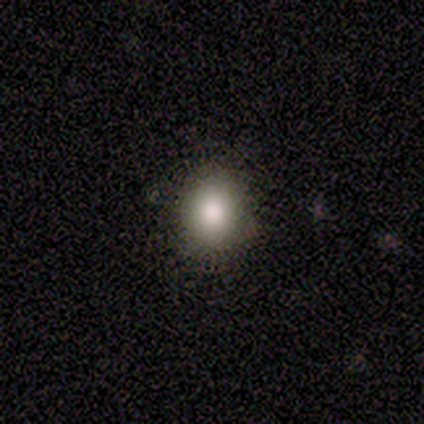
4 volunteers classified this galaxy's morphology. Volunteers were most divided on "how rounded": in between: 67%, round: 33%, cigar-shaped: 0%. More confident: merging — none (100%); smooth or featured — smooth (75%).